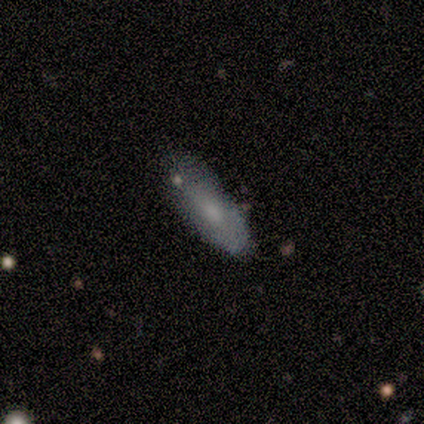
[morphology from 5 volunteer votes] Q: Smooth or featured?
A: smooth (100%)
Q: How rounded?
A: in between (80%); runner-up: cigar-shaped (20%)
Q: Merging?
A: minor disturbance (60%); runner-up: none (40%)